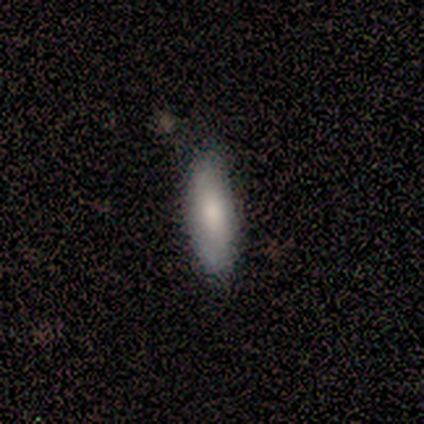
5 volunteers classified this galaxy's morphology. Q: Smooth or featured?
A: smooth (100%)
Q: How rounded?
A: in between (80%); runner-up: cigar-shaped (20%)
Q: Merging?
A: none (80%); runner-up: minor disturbance (20%)